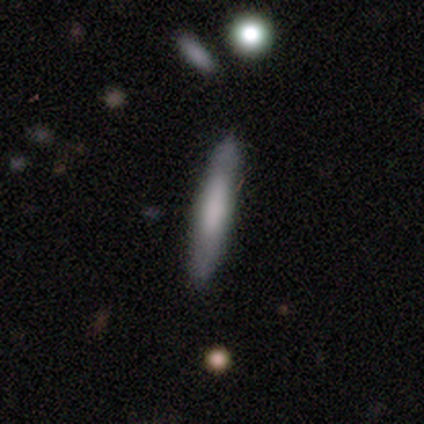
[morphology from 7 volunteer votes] smooth_or_featured: smooth (p=0.57) [alt: featured or disk p=0.43]
how_rounded: cigar-shaped (p=0.75) [alt: in between p=0.25]
merging: none (p=0.71) [alt: minor disturbance p=0.29]